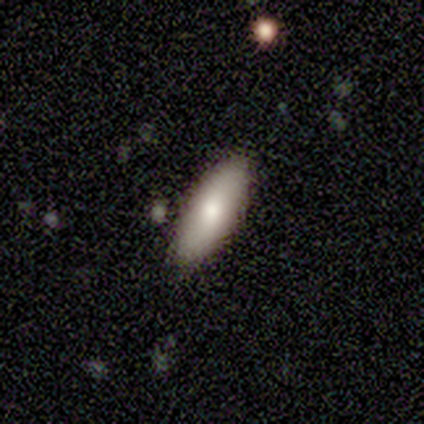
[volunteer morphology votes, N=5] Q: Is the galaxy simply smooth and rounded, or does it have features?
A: smooth — 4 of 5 (80%).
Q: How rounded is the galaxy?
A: in between — 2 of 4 (50%, tied with cigar-shaped).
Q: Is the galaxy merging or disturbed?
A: none — 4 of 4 (100%).